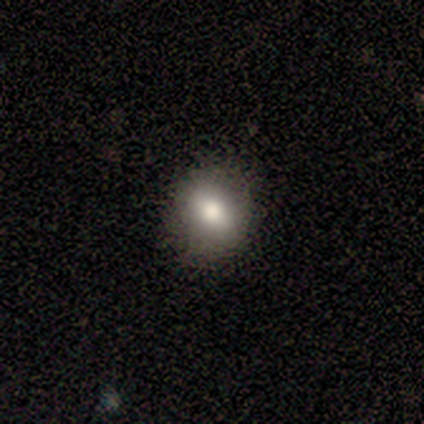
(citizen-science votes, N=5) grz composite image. It shows a smooth galaxy with no disk features (80%) that is round (75%). Merging: none (100%).